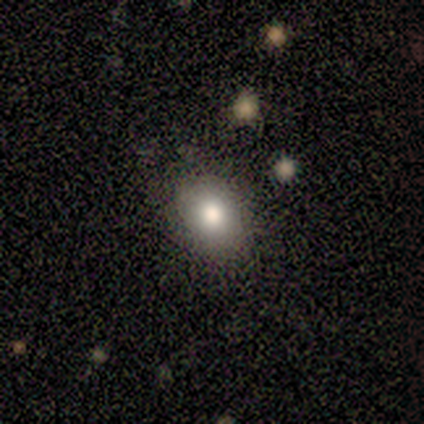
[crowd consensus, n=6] Morphology: type=smooth (100%); roundness=in between (67%); merging=none (83%).